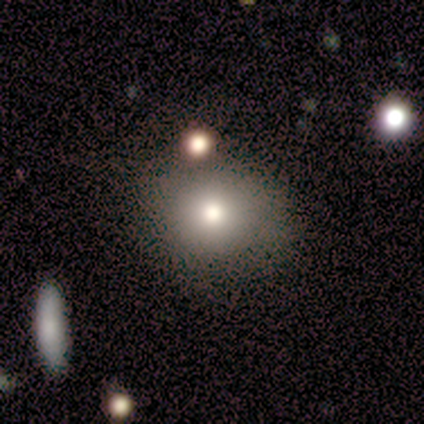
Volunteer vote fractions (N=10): A smooth galaxy with no disk features (80%) that is round (62%). Merging: none (70%).